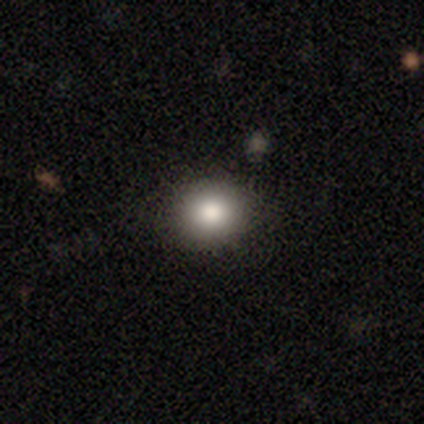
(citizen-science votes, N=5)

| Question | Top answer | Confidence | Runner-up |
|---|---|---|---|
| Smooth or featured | smooth | 80% | star or artifact (20%) |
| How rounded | round | 75% | in between (25%) |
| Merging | none | 100% | — |